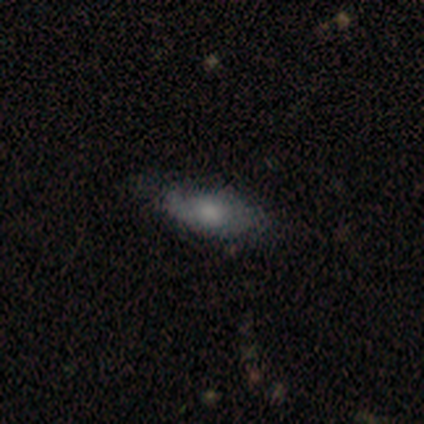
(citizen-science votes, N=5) smooth-or-featured: smooth: 60% | featured or disk: 40% | star or artifact: 0%
  how-rounded: in between: 100% | round: 0% | cigar-shaped: 0%
  merging: none: 40% (tied) | minor disturbance: 40% (tied) | major disturbance: 20% | merger: 0%